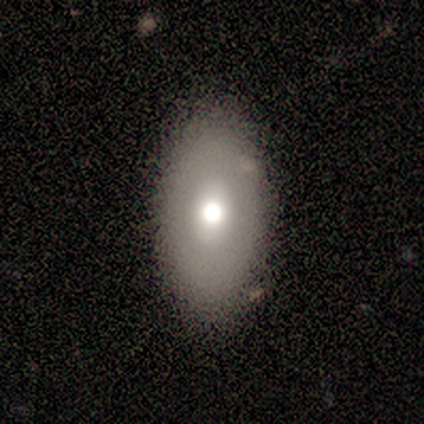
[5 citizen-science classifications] Q: Smooth or featured?
A: featured or disk (60%); runner-up: smooth (40%)
Q: Edge-on disk?
A: no (100%)
Q: Bar?
A: no (67%); runner-up: strong (33%)
Q: Spiral arms?
A: no (100%)
Q: Bulge size?
A: moderate (67%); runner-up: large (33%)
Q: Merging?
A: none (100%)